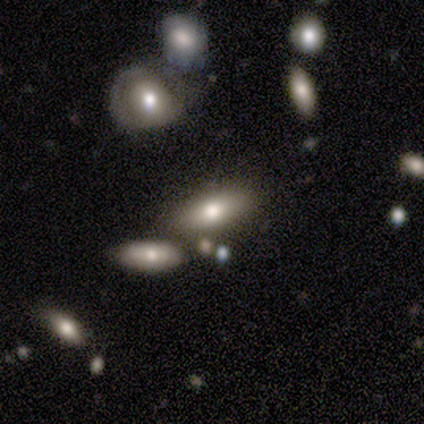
This is clearly a smooth galaxy (100%). How rounded: clearly in between (80%). Merging: clearly none (80%).